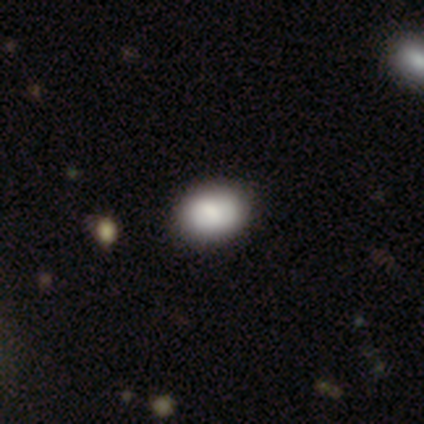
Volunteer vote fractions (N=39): Smooth or featured: smooth — 82% (featured or disk — 13%)
How rounded: in between — 69% (round — 28%)
Merging: none — 86% (minor disturbance — 8%)